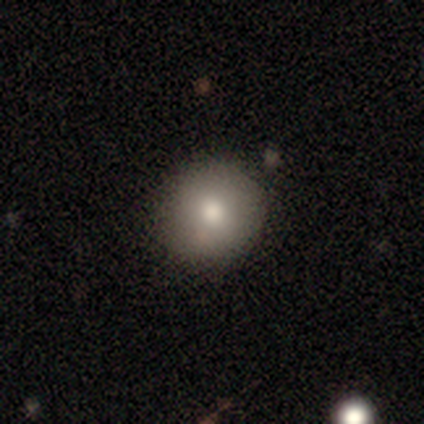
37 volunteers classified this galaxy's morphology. Q: Smooth or featured?
A: smooth (86%); runner-up: star or artifact (8%)
Q: How rounded?
A: round (91%); runner-up: in between (9%)
Q: Merging?
A: none (91%); runner-up: minor disturbance (9%)